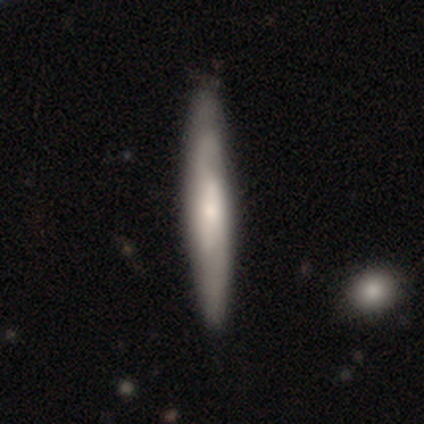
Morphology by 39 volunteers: This is possibly a featured or disk galaxy (49%). It is possibly viewed edge-on (58%). Edge-on bulge: possibly rounded (45%). Merging: clearly none (86%).